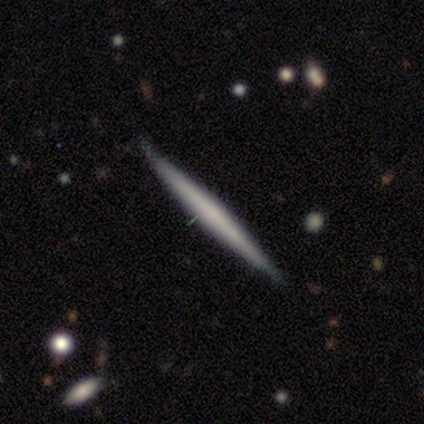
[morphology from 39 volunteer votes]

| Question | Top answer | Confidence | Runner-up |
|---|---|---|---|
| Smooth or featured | smooth | 49% | featured or disk (46%) |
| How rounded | cigar-shaped | 100% | — |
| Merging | none | 70% | minor disturbance (19%) |